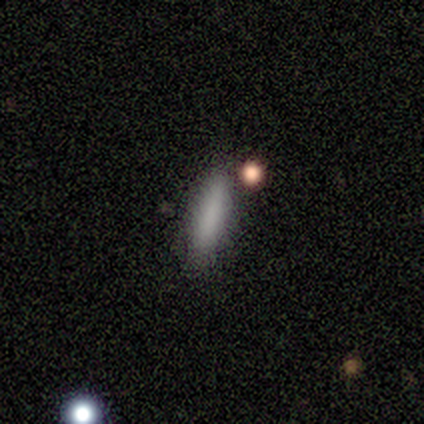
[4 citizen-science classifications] Smooth or featured? 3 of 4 (75%) said smooth. How rounded? 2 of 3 (67%) said cigar-shaped. Merging? 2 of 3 (67%) said none.